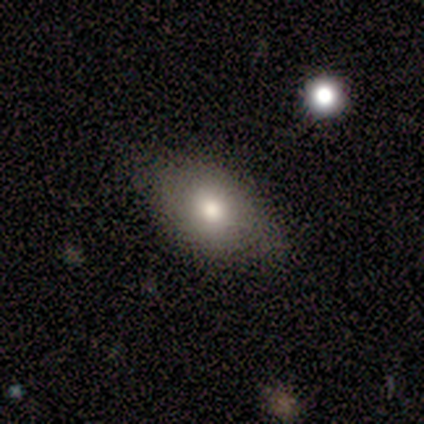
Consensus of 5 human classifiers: A smooth galaxy with no disk features (40%, tied with featured or disk) that is in between round and cigar-shaped (100%). Merging: none (100%).